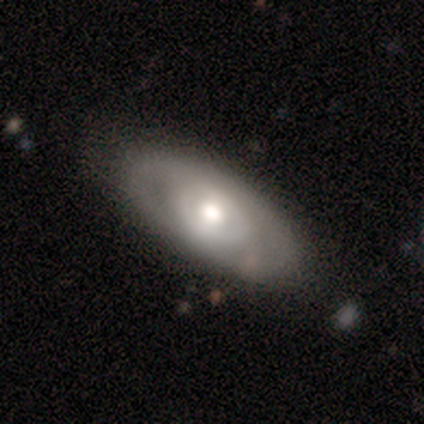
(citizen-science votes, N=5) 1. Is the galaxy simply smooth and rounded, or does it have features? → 60% featured or disk, 40% smooth, 0% star or artifact.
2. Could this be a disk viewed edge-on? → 67% no, 33% yes.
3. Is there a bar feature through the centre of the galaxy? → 100% weak, 0% strong, 0% no.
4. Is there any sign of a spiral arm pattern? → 50% yes (tied), 50% no (tied).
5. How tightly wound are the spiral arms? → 100% medium, 0% tight, 0% loose.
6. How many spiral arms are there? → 100% can't tell, 0% 1, 0% 2, 0% 3, 0% 4, 0% more than 4.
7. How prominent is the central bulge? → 100% moderate, 0% dominant, 0% large, 0% small, 0% none.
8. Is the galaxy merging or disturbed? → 100% none, 0% minor disturbance, 0% major disturbance, 0% merger.